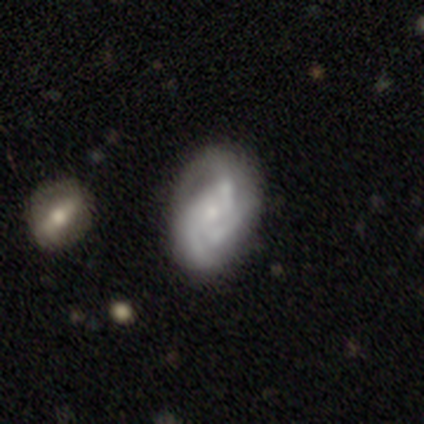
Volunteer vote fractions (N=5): Q: Smooth or featured?
A: featured or disk (80%); runner-up: star or artifact (20%)
Q: Edge-on disk?
A: no (100%)
Q: Bar?
A: no (75%); runner-up: weak (25%)
Q: Spiral arms?
A: yes (100%)
Q: Spiral winding?
A: tight (50%); runner-up: medium (25%)
Q: Spiral arm count?
A: 2 (50%); tied with: can't tell (50%)
Q: Bulge size?
A: small (75%); runner-up: none (25%)
Q: Merging?
A: none (50%); runner-up: major disturbance (25%)